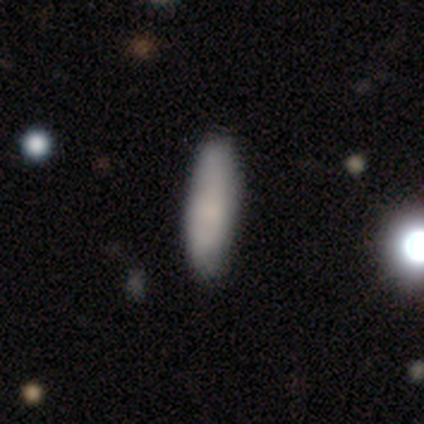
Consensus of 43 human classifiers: smooth_or_featured: smooth (p=0.88) [alt: featured or disk p=0.07]
how_rounded: cigar-shaped (p=0.66) [alt: in between p=0.34]
merging: none (p=0.88) [alt: minor disturbance p=0.12]